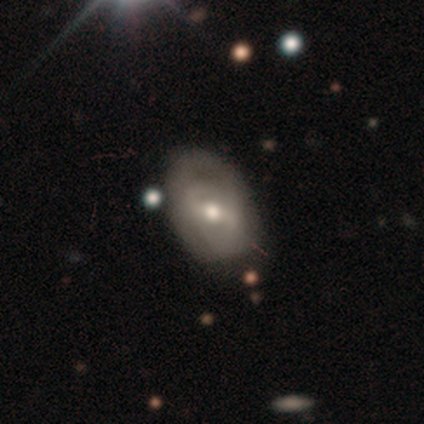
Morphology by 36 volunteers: This is likely a featured or disk galaxy (64%). It is clearly not viewed edge-on (100%). Bar: marginally weak (43%). Spiral arm pattern: likely yes (74%). Spiral arm count: possibly 2 (59%). Spiral winding: marginally medium (41%). Central bulge: likely moderate (65%). Merging: likely none (68%).